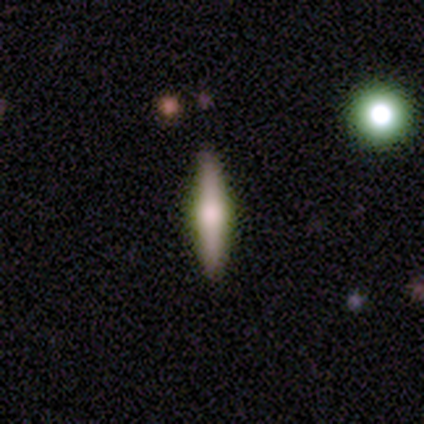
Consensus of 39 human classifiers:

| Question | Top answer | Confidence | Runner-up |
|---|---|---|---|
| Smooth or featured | featured or disk | 62% | smooth (31%) |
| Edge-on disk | yes | 88% | no (12%) |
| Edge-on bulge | rounded | 76% | boxy (19%) |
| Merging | none | 89% | minor disturbance (11%) |